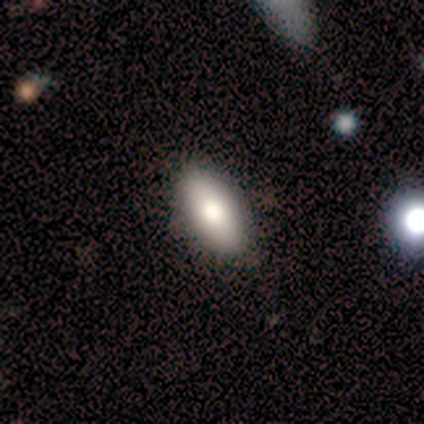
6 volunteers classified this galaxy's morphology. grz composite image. It shows a smooth galaxy with no disk features (83%) that is in between round and cigar-shaped (100%). Merging: none (100%).